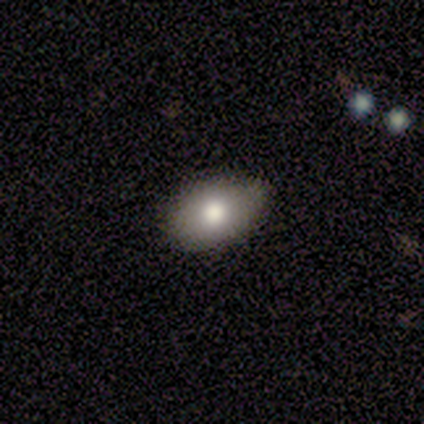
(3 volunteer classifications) smooth 100%, featured or disk 0%, star or artifact 0%. Down the decision tree: how rounded — in between (100%); merging — none (67%).